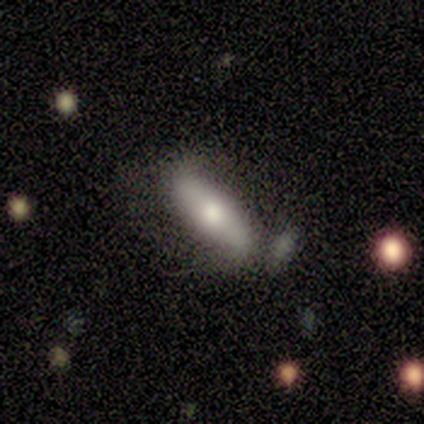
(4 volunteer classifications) Overall: smooth (75%). How rounded: cigar-shaped (67%; in between 33%). Merging: none (75%).